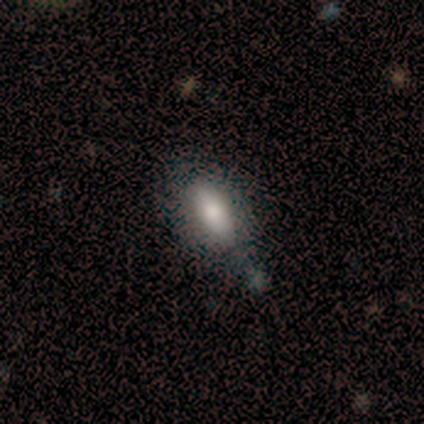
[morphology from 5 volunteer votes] Volunteers were most divided on "smooth or featured": featured or disk: 60%, smooth: 40%, star or artifact: 0%. More confident: edge-on disk — no (100%); spiral arms — no (100%); bar — no (67%); bulge size — large (67%); merging — minor disturbance (60%).